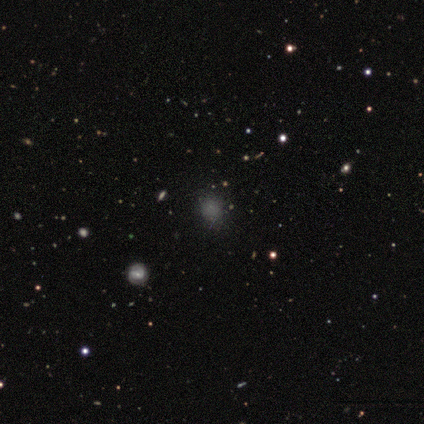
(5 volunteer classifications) Smooth or featured? 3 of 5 (60%) said smooth. How rounded? 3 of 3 (100%) said round. Merging? 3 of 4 (75%) said none.